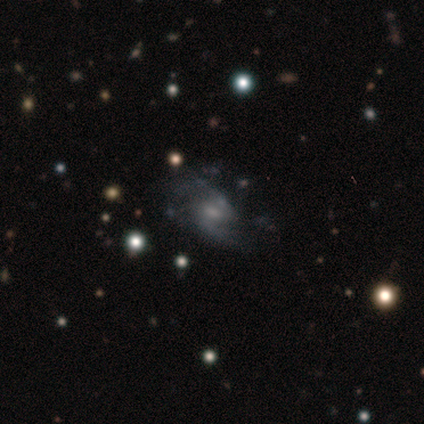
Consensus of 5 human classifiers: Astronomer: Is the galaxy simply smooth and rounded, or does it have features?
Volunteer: featured or disk — 60%.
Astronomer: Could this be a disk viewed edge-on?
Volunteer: no — 100%.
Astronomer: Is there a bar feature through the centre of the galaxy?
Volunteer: weak — 67%.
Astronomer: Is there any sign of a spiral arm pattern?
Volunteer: yes — 100%.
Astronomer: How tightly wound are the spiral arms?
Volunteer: medium — 67%.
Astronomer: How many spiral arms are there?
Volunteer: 2 — 100%.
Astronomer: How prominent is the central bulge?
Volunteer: small — 67%.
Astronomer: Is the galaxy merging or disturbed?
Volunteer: none — 75%.